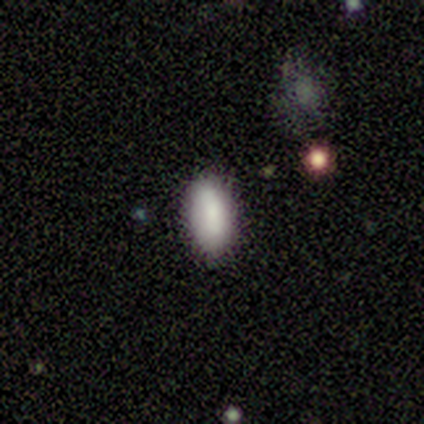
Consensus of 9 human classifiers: Smooth or featured? 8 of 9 (89%) said smooth. How rounded? 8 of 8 (100%) said in between. Merging? 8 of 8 (100%) said none.